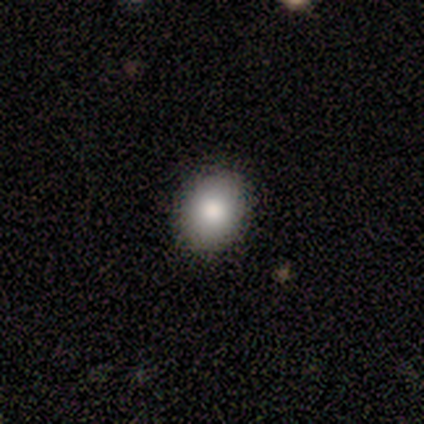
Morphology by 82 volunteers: type=smooth (85%); roundness=in between (59%); merging=none (92%).